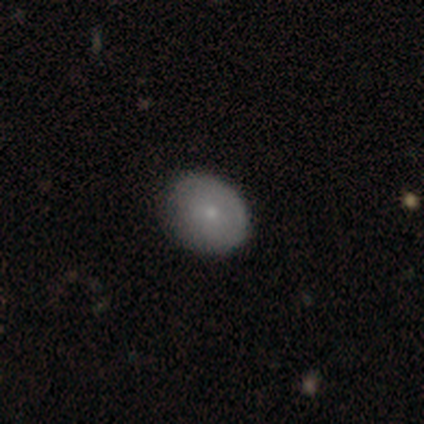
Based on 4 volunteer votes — Smooth or featured? 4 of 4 (100%) said smooth. How rounded? 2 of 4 (50%, tied with in between) said round. Merging? 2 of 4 (50%, tied with minor disturbance) said none.